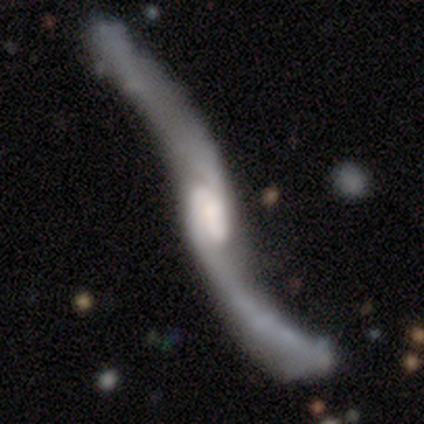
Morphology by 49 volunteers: Overall: featured or disk (92%). Edge-on disk: no (76%). Bar: no (47%; weak 35%). Spiral arms: yes (91%). Spiral arm count: 2 (97%). Spiral winding: loose (90%). Bulge size: moderate (38%; none 24%). Merging: none (60%).